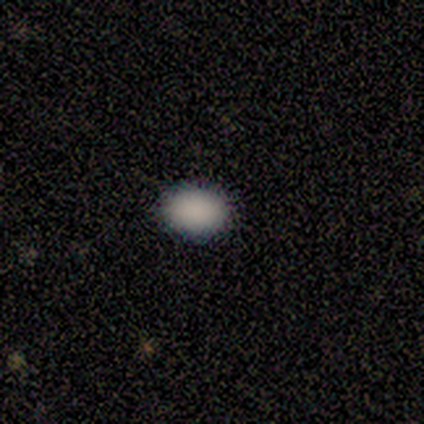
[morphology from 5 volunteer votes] A smooth galaxy with no disk features (80%) that is round (50%, tied with in between). Merging: none (100%).